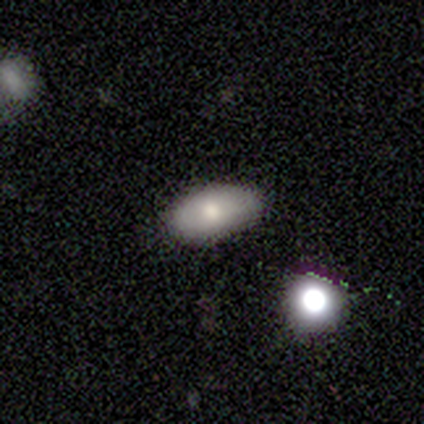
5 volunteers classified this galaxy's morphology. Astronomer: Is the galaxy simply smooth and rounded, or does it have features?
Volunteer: smooth — 100%.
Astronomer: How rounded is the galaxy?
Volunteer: in between — 100%.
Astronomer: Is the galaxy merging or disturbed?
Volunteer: none — 80%.